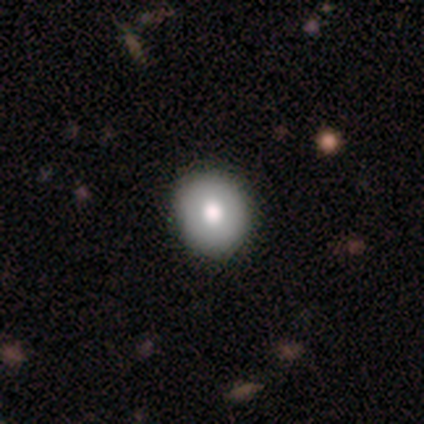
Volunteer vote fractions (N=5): smooth_or_featured: smooth (p=1.00)
how_rounded: round (p=1.00)
merging: none (p=1.00)